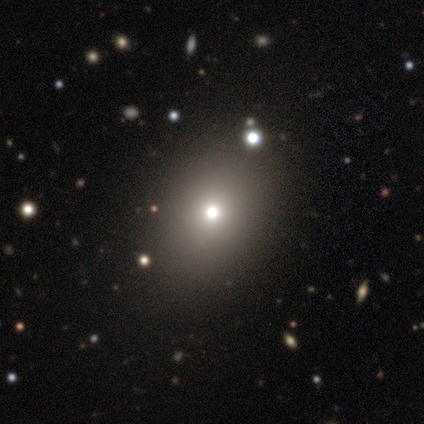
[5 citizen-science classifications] smooth-or-featured: star or artifact: 60% | smooth: 40% | featured or disk: 0%